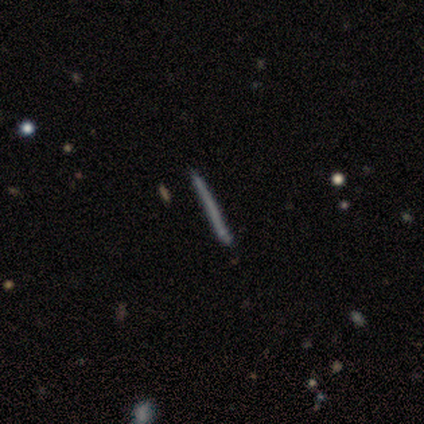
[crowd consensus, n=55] A smooth galaxy with no disk features (51%) that is cigar-shaped (96%). Merging: none (88%).